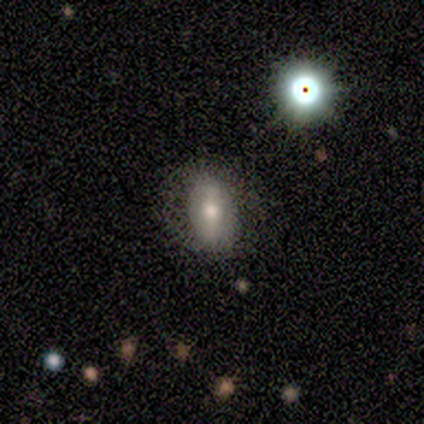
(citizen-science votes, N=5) A smooth galaxy with no disk features (60%) that is in between round and cigar-shaped (100%).

Vote fractions:
- Smooth or featured? smooth: 60% / featured or disk: 20% / star or artifact: 20%
- How rounded? in between: 100% / round: 0% / cigar-shaped: 0%
- Merging? none: 100% / minor disturbance: 0% / major disturbance: 0% / merger: 0%